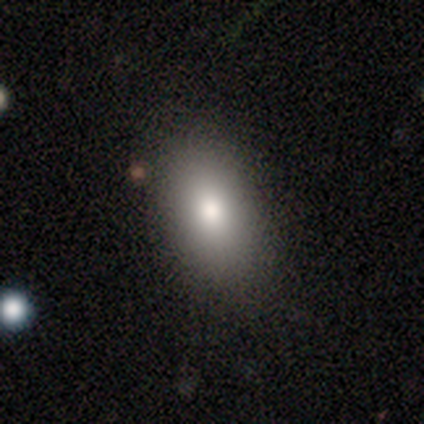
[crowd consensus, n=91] Overall: smooth (79%). How rounded: in between (85%). Merging: none (85%).